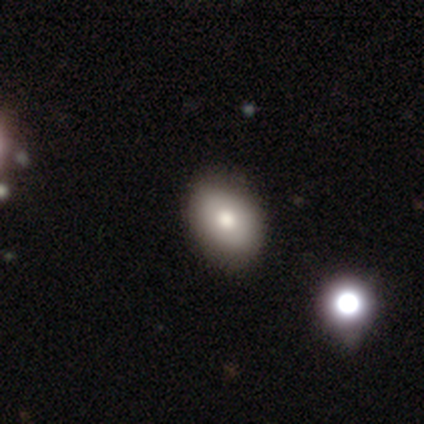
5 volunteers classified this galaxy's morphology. smooth-or-featured: smooth: 60% | featured or disk: 20% | star or artifact: 20%
  how-rounded: in between: 100% | round: 0% | cigar-shaped: 0%
  merging: none: 75% | minor disturbance: 25% | major disturbance: 0% | merger: 0%